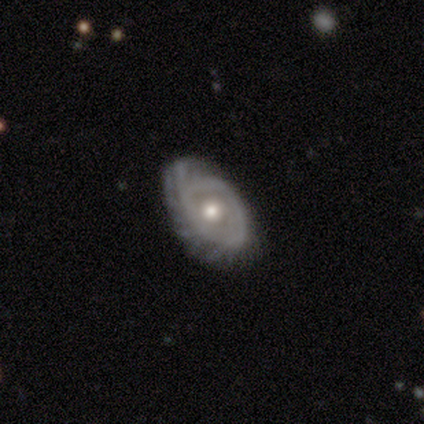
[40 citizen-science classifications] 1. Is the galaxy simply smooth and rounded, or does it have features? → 68% featured or disk, 28% smooth, 5% star or artifact.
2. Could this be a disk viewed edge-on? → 93% no, 7% yes.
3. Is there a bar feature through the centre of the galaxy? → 88% no, 8% weak, 4% strong.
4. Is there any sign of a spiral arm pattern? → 84% yes, 16% no.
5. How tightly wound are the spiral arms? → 48% tight, 29% medium, 24% loose.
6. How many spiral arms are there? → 33% can't tell, 24% more than 4, 14% 1, 14% 2, 10% 4, 5% 3.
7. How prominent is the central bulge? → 68% moderate, 16% large, 12% small, 4% dominant, 0% none.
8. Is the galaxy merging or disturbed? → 55% none, 29% minor disturbance, 13% major disturbance, 3% merger.